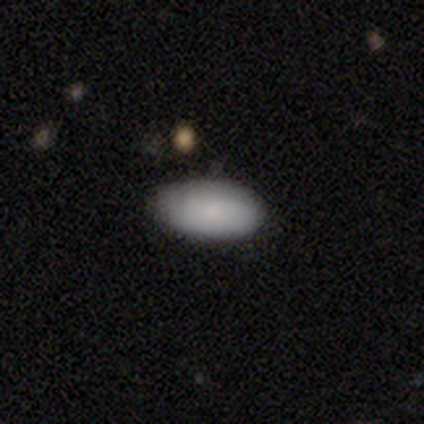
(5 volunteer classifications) A smooth galaxy with no disk features (80%) that is in between round and cigar-shaped (100%). Merging: none (100%).